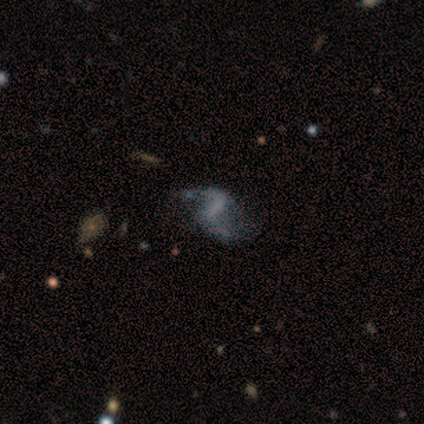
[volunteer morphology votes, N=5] Q: Smooth or featured?
A: featured or disk (80%); runner-up: star or artifact (20%)
Q: Edge-on disk?
A: no (100%)
Q: Bar?
A: strong (75%); runner-up: no (25%)
Q: Spiral arms?
A: yes (75%); runner-up: no (25%)
Q: Spiral winding?
A: loose (100%)
Q: Spiral arm count?
A: 2 (100%)
Q: Bulge size?
A: none (100%)
Q: Merging?
A: minor disturbance (50%); runner-up: none (25%)